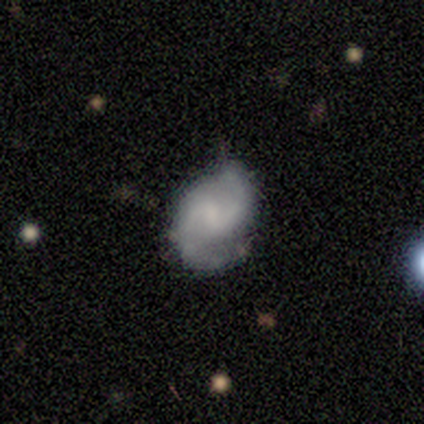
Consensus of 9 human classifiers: Smooth or featured? 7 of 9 (78%) said featured or disk. Edge-on disk? 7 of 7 (100%) said no. Bar? 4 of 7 (57%) said no. Spiral arms? 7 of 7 (100%) said yes. Spiral winding? 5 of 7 (71%) said medium. Spiral arm count? 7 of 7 (100%) said 2. Bulge size? 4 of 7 (57%) said none. Merging? 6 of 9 (67%) said none.